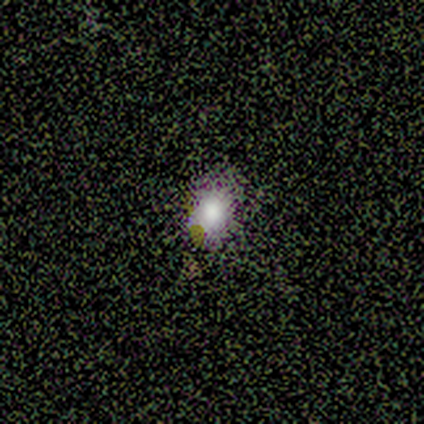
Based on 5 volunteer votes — Smooth or featured?
  - smooth: 100% *
  - featured or disk: 0%
  - star or artifact: 0%
How rounded?
  - in between: 60% *
  - round: 40%
  - cigar-shaped: 0%
Merging?
  - none: 100% *
  - minor disturbance: 0%
  - major disturbance: 0%
  - merger: 0%